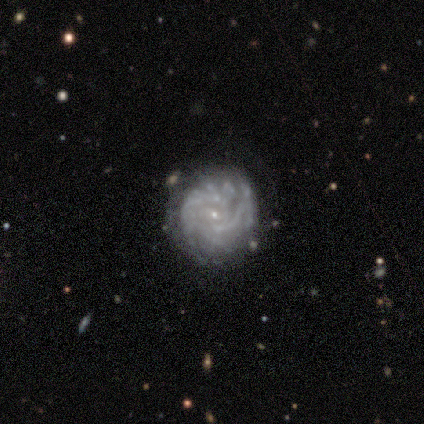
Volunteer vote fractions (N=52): featured or disk 92%, smooth 4%, star or artifact 4%. Down the decision tree: edge-on disk — no (98%); bar — no (64%); spiral arms — yes (94%); spiral arm count — can't tell (43%); spiral winding — tight (68%); bulge size — small (89%); merging — none (80%).